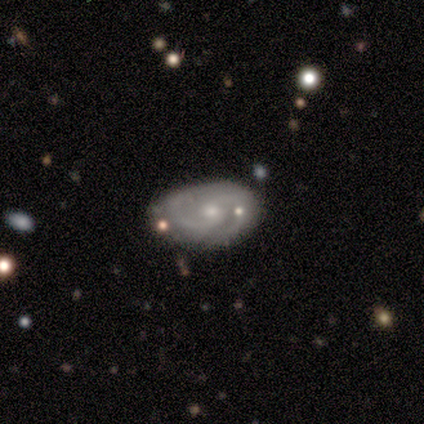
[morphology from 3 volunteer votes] This is clearly a featured or disk galaxy (100%). It is clearly not viewed edge-on (100%). Bar: likely no (67%). Spiral arm pattern: clearly yes (100%). Spiral arm count: clearly 2 (100%). Spiral winding: likely medium (67%). Central bulge: clearly small (100%). Merging: likely none (67%).